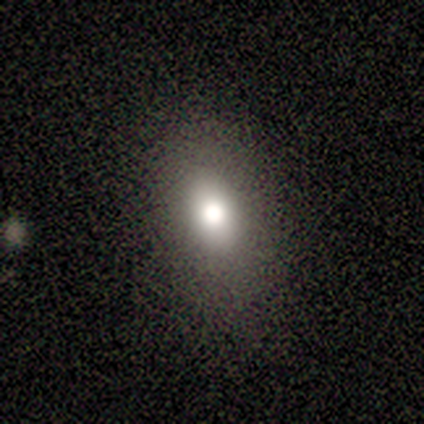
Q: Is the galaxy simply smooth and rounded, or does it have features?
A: smooth — 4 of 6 (67%).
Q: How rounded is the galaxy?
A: in between — 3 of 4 (75%).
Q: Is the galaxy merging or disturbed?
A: none — 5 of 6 (83%).